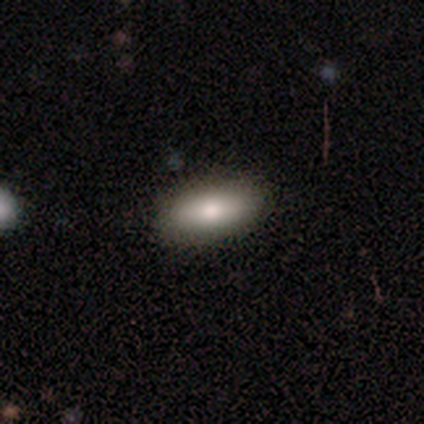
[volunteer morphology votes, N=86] Smooth or featured? smooth (73%)
How rounded? in between (87%)
Merging? none (93%)